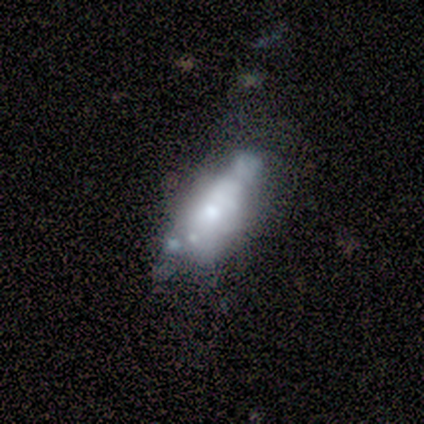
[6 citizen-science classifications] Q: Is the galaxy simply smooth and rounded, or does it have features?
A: featured or disk — 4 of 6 (67%).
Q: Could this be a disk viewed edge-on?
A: no — 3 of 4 (75%).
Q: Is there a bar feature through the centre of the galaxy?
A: no — 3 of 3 (100%).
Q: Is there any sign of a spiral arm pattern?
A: no — 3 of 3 (100%).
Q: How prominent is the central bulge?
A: moderate — 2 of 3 (67%).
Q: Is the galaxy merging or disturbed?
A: none — 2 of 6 (33%, tied with minor disturbance and major disturbance).